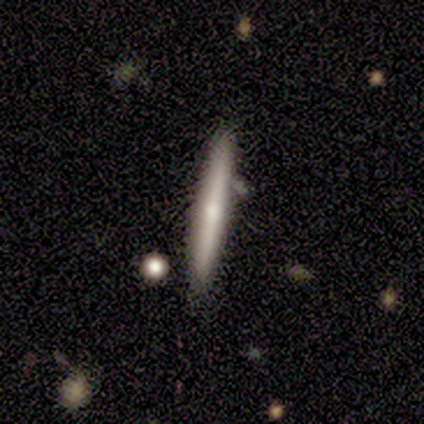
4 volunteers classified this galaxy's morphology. Smooth or featured: smooth — 75% (featured or disk — 25%)
How rounded: cigar-shaped — 100%
Merging: none — 75% (minor disturbance — 25%)